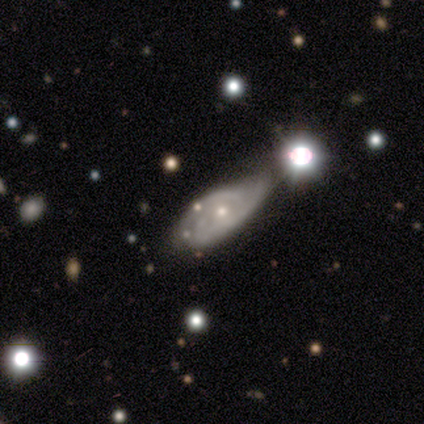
Smooth or featured: featured or disk — 79% (smooth — 18%)
Edge-on disk: no — 94% (yes — 6%)
Bar: no — 79% (weak — 21%)
Spiral arms: yes — 83% (no — 17%)
Spiral winding: tight — 58% (medium — 29%)
Spiral arm count: 2 — 50% (can't tell — 38%)
Bulge size: small — 52% (moderate — 41%)
Merging: minor disturbance — 29% (none — 24%)